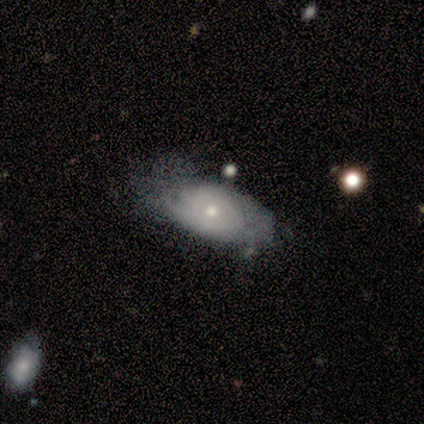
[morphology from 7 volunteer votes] Overall: featured or disk (71%). Edge-on disk: no (100%). Bar: no (60%; weak 40%). Spiral arms: yes (80%). Spiral arm count: can't tell (75%). Spiral winding: tight (75%). Bulge size: moderate (80%). Merging: none (43%, tied with minor disturbance).